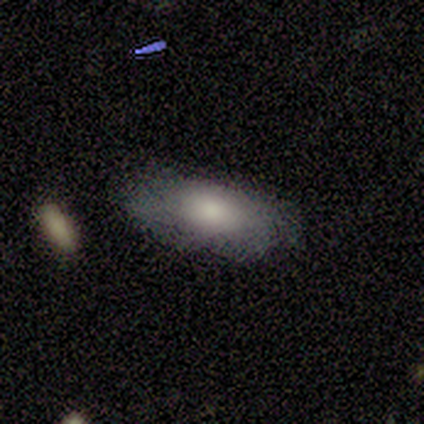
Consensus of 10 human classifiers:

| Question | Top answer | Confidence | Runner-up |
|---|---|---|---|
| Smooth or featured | smooth | 60% | featured or disk (30%) |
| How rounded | in between | 83% | cigar-shaped (17%) |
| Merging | none | 100% | — |